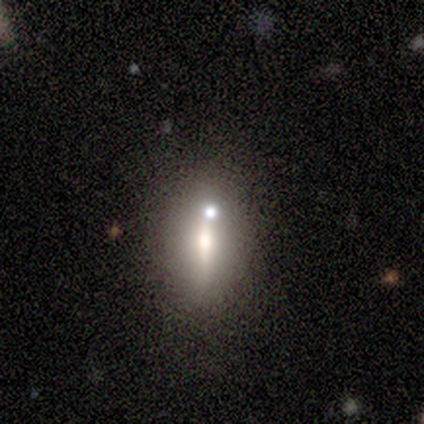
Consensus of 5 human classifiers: Smooth or featured?
  - smooth: 60% *
  - featured or disk: 20%
  - star or artifact: 20%
How rounded?
  - round: 33% * (tied)
  - in between: 33% * (tied)
  - cigar-shaped: 33% * (tied)
Merging?
  - none: 50% *
  - minor disturbance: 25%
  - merger: 25%
  - major disturbance: 0%